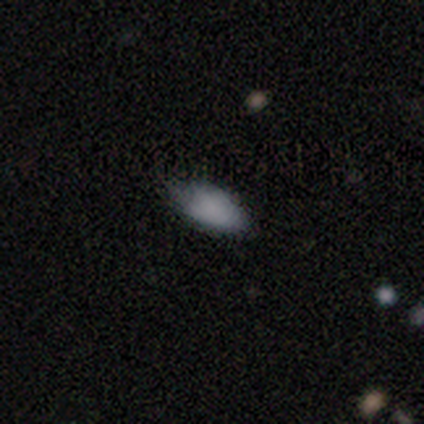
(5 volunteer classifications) smooth-or-featured: smooth: 60% | star or artifact: 40% | featured or disk: 0%
  how-rounded: in between: 100% | round: 0% | cigar-shaped: 0%
  merging: none: 67% | minor disturbance: 33% | major disturbance: 0% | merger: 0%